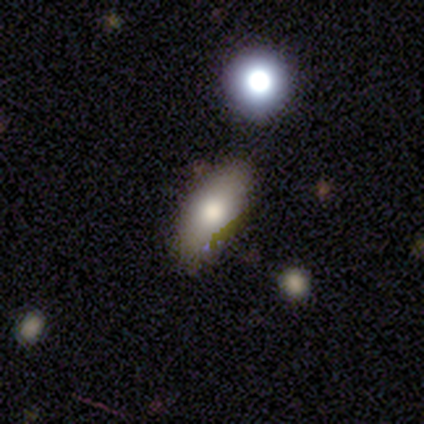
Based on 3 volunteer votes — A smooth galaxy with no disk features (67%) that is in between round and cigar-shaped (50%, tied with cigar-shaped). Merging: none (67%).